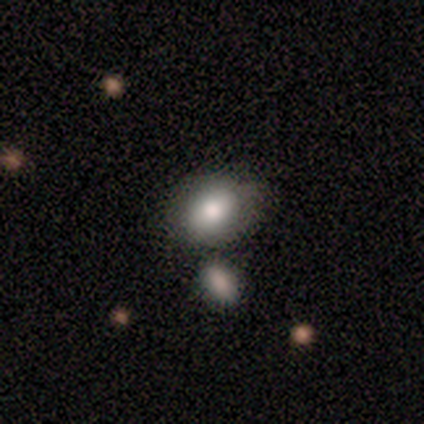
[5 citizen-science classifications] Smooth or featured? smooth (60%)
How rounded? in between (67%)
Merging? none (100%)